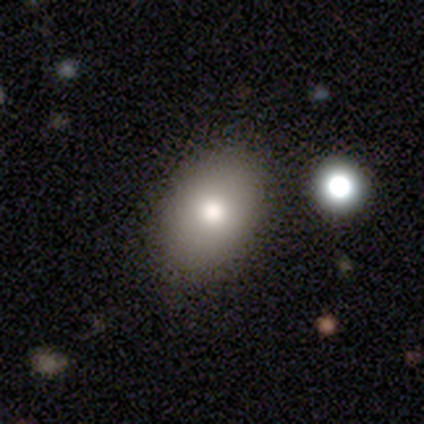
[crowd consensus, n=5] Smooth or featured? 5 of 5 (100%) said smooth. How rounded? 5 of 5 (100%) said in between. Merging? 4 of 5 (80%) said none.